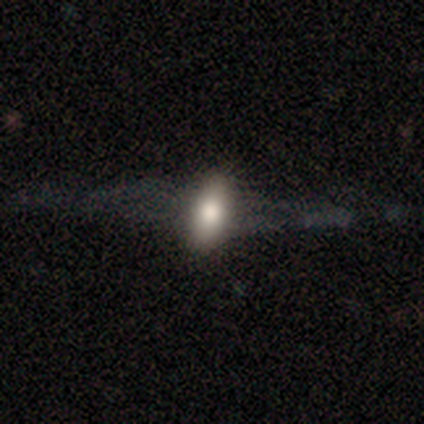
Q: Smooth or featured?
A: smooth (75%); runner-up: featured or disk (25%)
Q: How rounded?
A: in between (100%)
Q: Merging?
A: none (75%); runner-up: minor disturbance (25%)